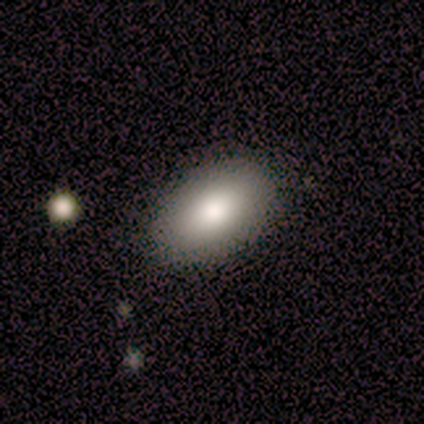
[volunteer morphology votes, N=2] A smooth galaxy with no disk features (50%, tied with featured or disk) that is round (100%). Merging: none (50%, tied with minor disturbance).